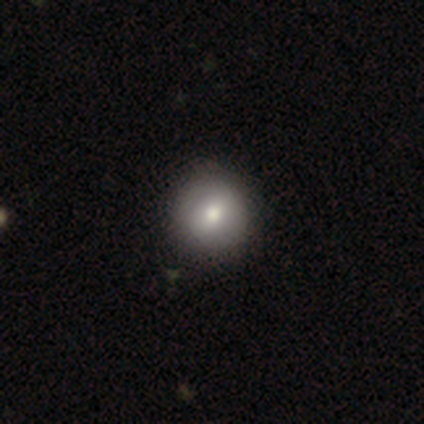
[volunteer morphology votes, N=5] Volunteers were most divided on "how rounded": round: 75%, in between: 25%, cigar-shaped: 0%. More confident: smooth or featured — smooth (80%); merging — none (75%).